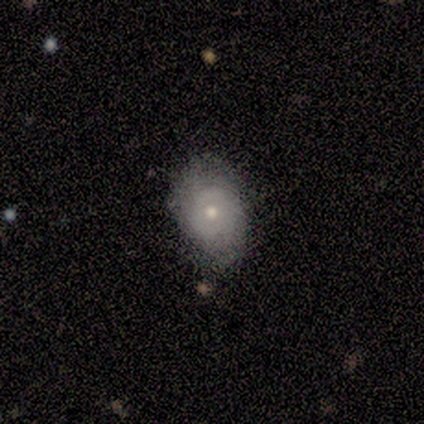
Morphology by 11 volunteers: Smooth or featured? 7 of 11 (64%) said featured or disk. Edge-on disk? 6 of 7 (86%) said no. Bar? 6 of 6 (100%) said no. Spiral arms? 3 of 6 (50%, tied with no) said yes. Spiral winding? 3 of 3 (100%) said tight. Spiral arm count? 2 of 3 (67%) said can't tell. Bulge size? 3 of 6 (50%, tied with small) said moderate. Merging? 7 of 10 (70%) said none.